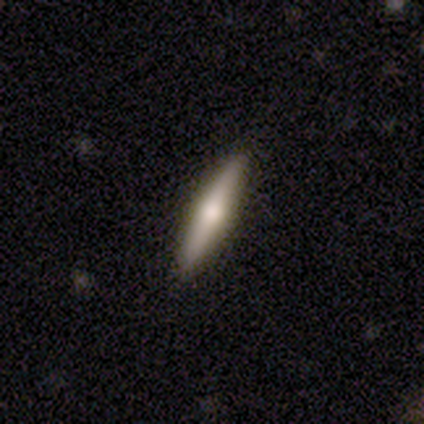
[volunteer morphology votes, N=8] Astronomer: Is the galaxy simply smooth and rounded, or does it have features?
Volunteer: featured or disk — 75%.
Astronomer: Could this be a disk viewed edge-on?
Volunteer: yes — 100%.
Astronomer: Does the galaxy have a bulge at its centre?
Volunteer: rounded — 83%.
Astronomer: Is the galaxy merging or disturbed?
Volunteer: none — 100%.